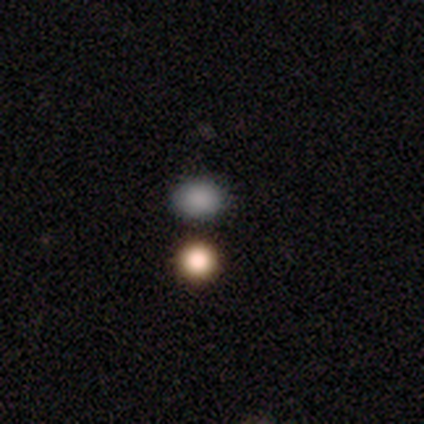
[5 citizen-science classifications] Smooth or featured: smooth — 80% (star or artifact — 20%)
How rounded: round — 100%
Merging: none — 50% (tied with minor disturbance — 50%)